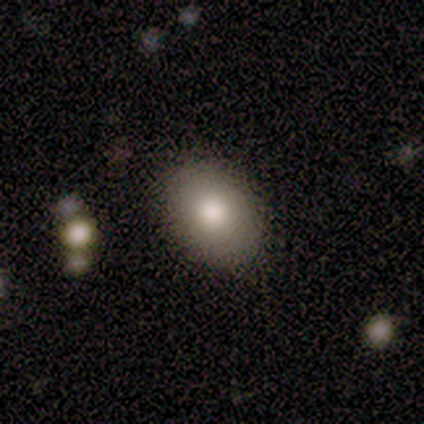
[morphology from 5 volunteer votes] This appears to be a smooth galaxy with no disk features (80%) that is round (75%). Merging: none (100%).